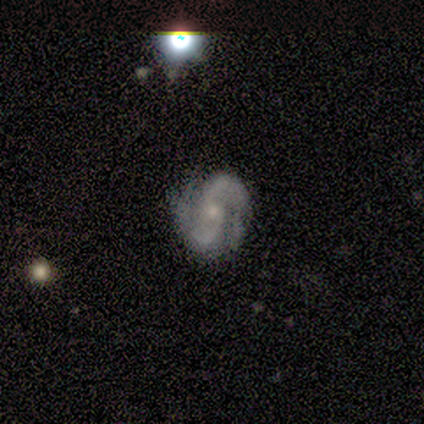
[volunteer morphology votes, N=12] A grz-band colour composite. It shows a featured or disk galaxy (83%) with no bar (70%), 2 (50%) tight (40%) spiral arms (100%) and a small central bulge (70%). Merging: none (82%).